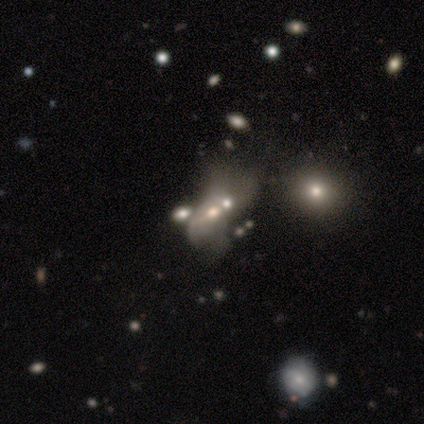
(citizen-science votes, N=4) Smooth or featured?
  - featured or disk: 50% *
  - smooth: 25%
  - star or artifact: 25%
Edge-on disk?
  - no: 100% *
  - yes: 0%
Bar?
  - no: 100% *
  - strong: 0%
  - weak: 0%
Spiral arms?
  - no: 100% *
  - yes: 0%
Bulge size?
  - moderate: 50% * (tied)
  - none: 50% * (tied)
  - dominant: 0%
  - large: 0%
  - small: 0%
Merging?
  - major disturbance: 67% *
  - none: 33%
  - minor disturbance: 0%
  - merger: 0%